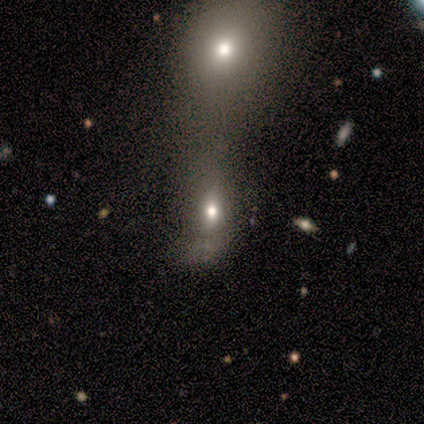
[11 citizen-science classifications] Smooth or featured? 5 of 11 (45%) said smooth. How rounded? 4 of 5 (80%) said in between. Merging? 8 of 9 (89%) said merger.